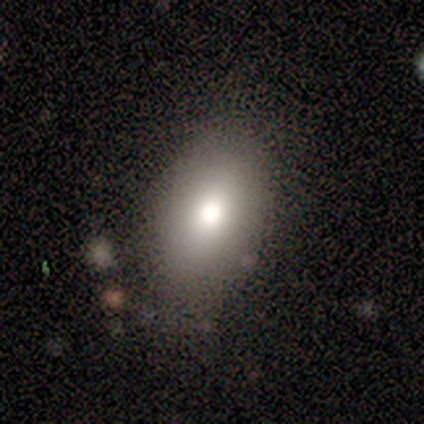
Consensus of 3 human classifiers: smooth-or-featured: smooth: 100% | featured or disk: 0% | star or artifact: 0%
  how-rounded: in between: 100% | round: 0% | cigar-shaped: 0%
  merging: none: 100% | minor disturbance: 0% | major disturbance: 0% | merger: 0%